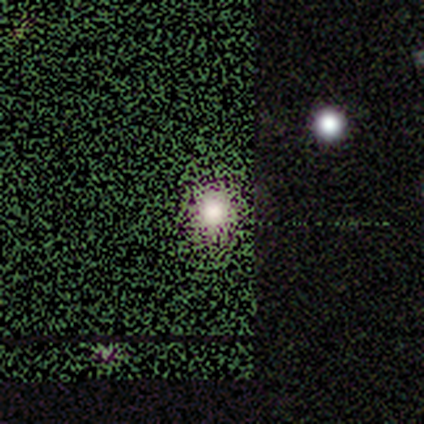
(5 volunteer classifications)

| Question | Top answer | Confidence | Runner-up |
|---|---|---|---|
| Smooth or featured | star or artifact | 80% | smooth (20%) |